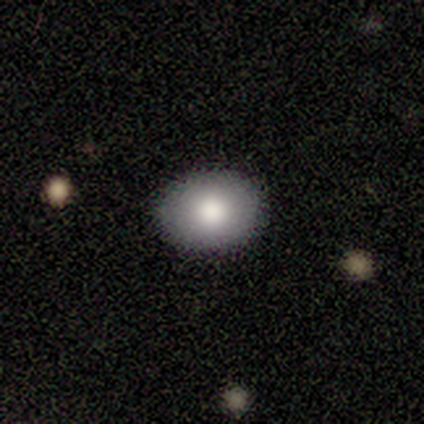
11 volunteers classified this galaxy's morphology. A smooth galaxy with no disk features (91%) that is in between round and cigar-shaped (60%). Merging: none (91%).